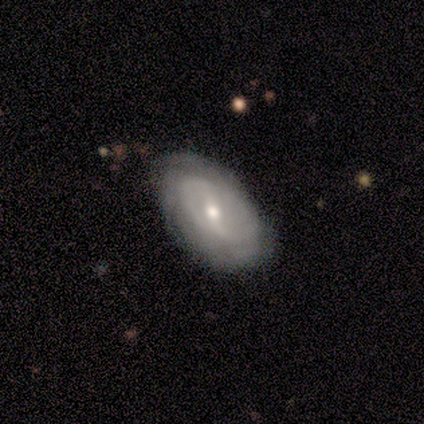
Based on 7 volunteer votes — smooth_or_featured: featured or disk (p=0.86) [alt: star or artifact p=0.14]
disk_edge_on: no (p=1.00)
bar: no (p=0.50) [alt: strong p=0.33]
has_spiral_arms: yes (p=0.83) [alt: no p=0.17]
spiral_winding: tight (p=0.60) [alt: loose p=0.40]
spiral_arm_count: 2 (p=0.40) [tied with: can't tell p=0.40]
bulge_size: moderate (p=0.50) [tied with: small p=0.50]
merging: none (p=1.00)